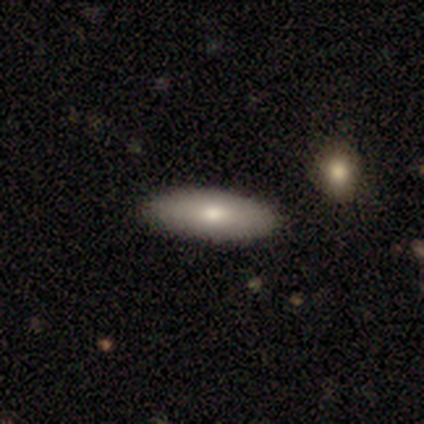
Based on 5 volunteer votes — Smooth or featured? smooth (100%)
How rounded? in between (60%)
Merging? none (100%)